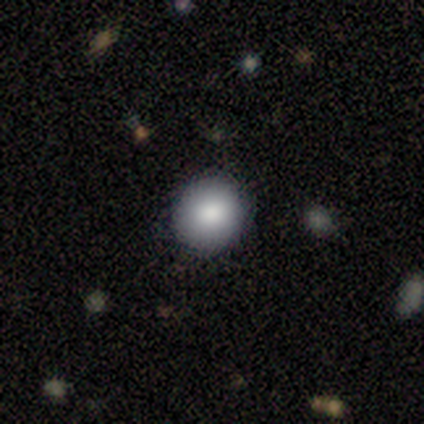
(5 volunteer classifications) This appears to be a smooth galaxy with no disk features (80%) that is round (100%). Merging: none (75%).